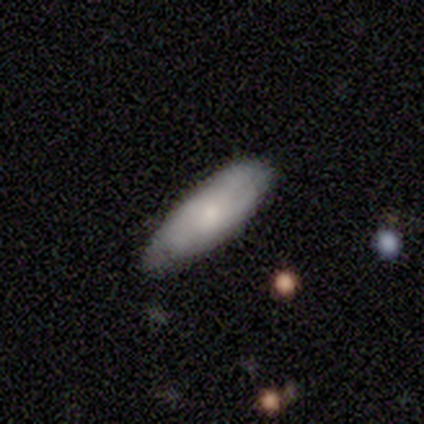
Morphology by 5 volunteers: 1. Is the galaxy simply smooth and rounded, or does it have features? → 80% smooth, 20% featured or disk, 0% star or artifact.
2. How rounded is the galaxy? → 50% in between (tied), 50% cigar-shaped (tied), 0% round.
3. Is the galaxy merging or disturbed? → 80% none, 20% minor disturbance, 0% major disturbance, 0% merger.